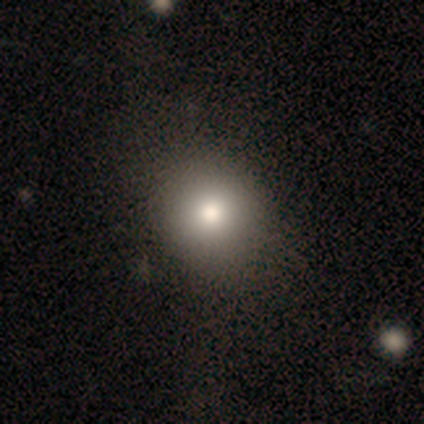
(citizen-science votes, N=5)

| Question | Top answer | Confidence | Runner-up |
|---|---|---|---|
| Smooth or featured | smooth | 60% | star or artifact (40%) |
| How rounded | round | 100% | — |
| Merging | none | 67% | minor disturbance (33%) |